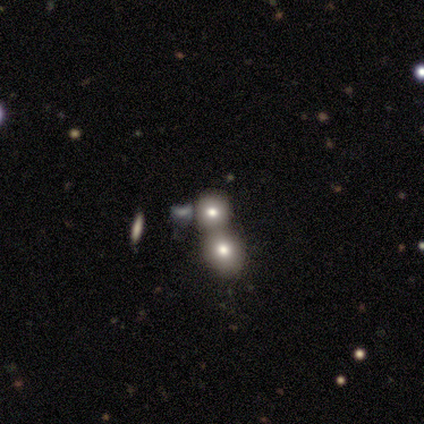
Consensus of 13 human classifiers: Morphology: type=smooth (62%); roundness=round (100%); merging=merger (55%).